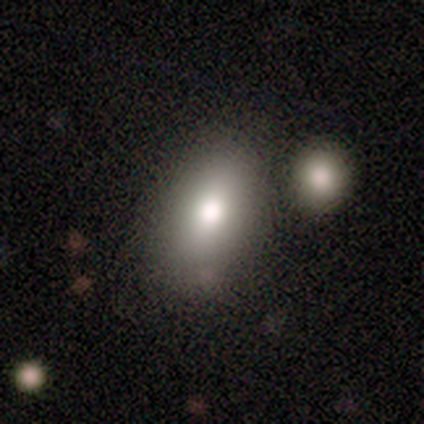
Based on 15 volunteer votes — Smooth or featured? smooth (87%)
How rounded? in between (92%)
Merging? none (64%)